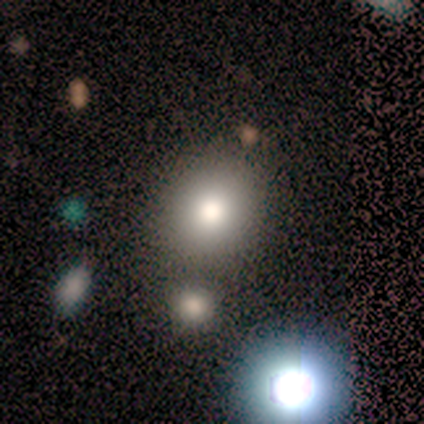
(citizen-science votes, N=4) Smooth or featured? star or artifact (50%)